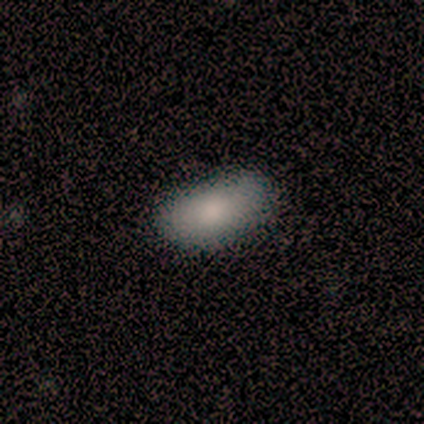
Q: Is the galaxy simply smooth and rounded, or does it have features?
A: smooth — 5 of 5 (100%).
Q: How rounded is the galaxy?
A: in between — 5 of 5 (100%).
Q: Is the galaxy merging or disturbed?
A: none — 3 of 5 (60%).